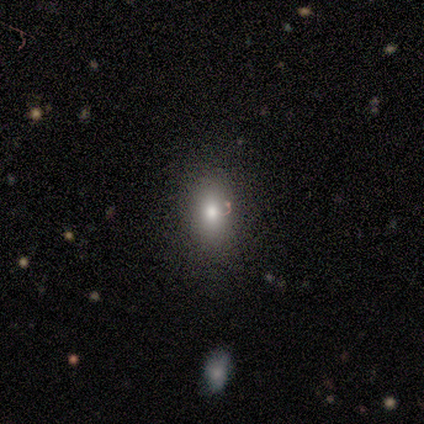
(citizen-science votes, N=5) Overall: smooth (60%; featured or disk 40%). How rounded: in between (67%; round 33%). Merging: none (100%).